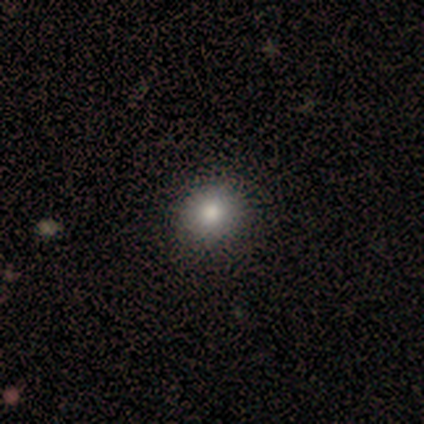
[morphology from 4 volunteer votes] Q: Smooth or featured?
A: smooth (100%)
Q: How rounded?
A: round (100%)
Q: Merging?
A: none (75%); runner-up: minor disturbance (25%)